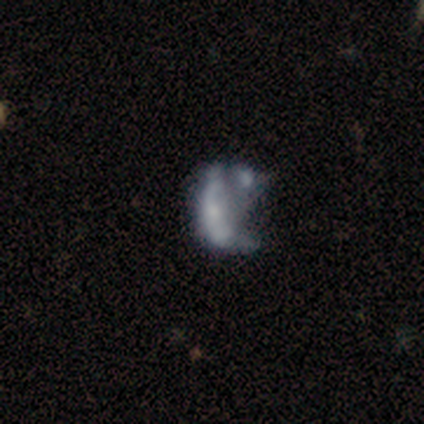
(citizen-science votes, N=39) This appears to be a featured or disk galaxy (59%) with no bar (91%), no spiral arms (87%) and a small central bulge (43%). Merging: merger (43%).